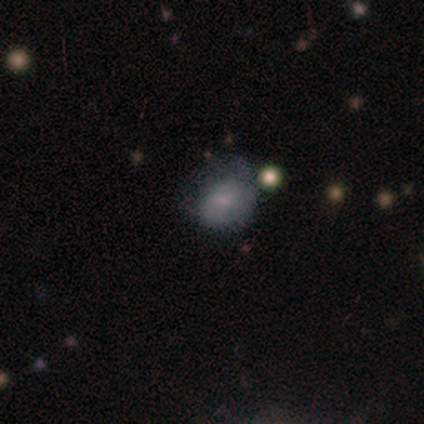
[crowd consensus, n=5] Volunteers were most divided on "bulge size" (3-way tie): moderate: 33%, small: 33%, none: 33%, dominant: 0%, large: 0%. More confident: edge-on disk — no (100%); bar — no (67%); spiral arms — no (67%); smooth or featured — featured or disk (60%); merging — minor disturbance (50%).